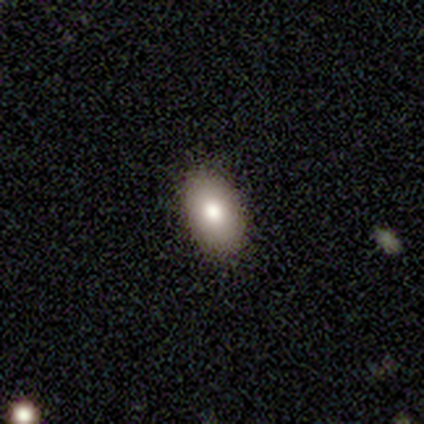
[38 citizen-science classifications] Volunteers were most divided on "smooth or featured": smooth: 84%, featured or disk: 13%, star or artifact: 3%. More confident: merging — none (97%); how rounded — in between (94%).